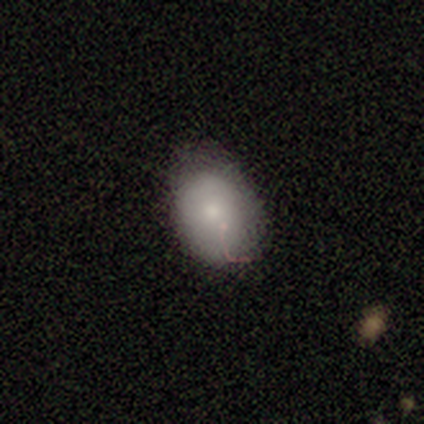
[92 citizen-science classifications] Morphology: type=smooth (72%); roundness=in between (83%); merging=none (69%).